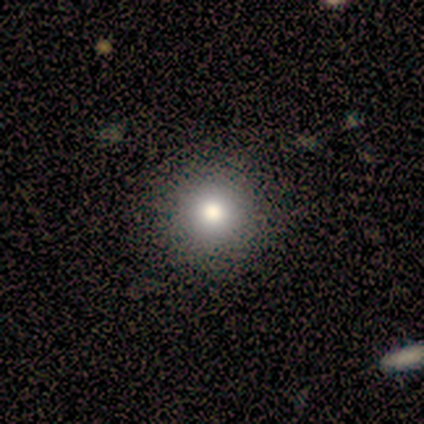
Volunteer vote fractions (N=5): This appears to be a smooth galaxy with no disk features (80%) that is round (100%). Merging: none (100%).